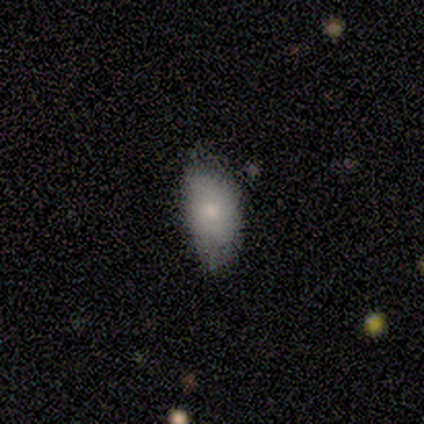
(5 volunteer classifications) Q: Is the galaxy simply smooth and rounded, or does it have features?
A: smooth — 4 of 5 (80%).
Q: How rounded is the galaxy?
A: in between — 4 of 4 (100%).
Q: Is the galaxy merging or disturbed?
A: none — 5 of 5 (100%).